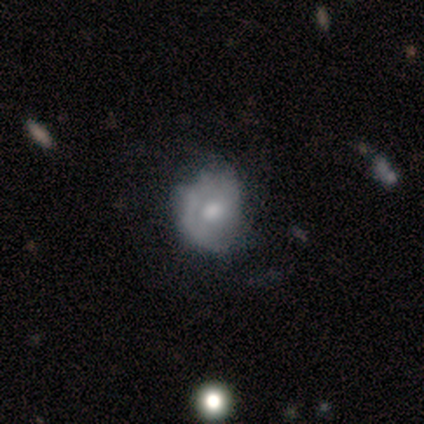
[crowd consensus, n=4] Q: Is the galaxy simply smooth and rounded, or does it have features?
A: smooth — 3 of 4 (75%).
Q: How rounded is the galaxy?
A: round — 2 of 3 (67%).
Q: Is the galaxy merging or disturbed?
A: major disturbance — 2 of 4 (50%).